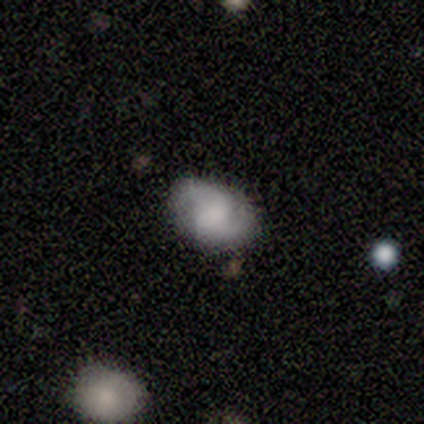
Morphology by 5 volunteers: Overall: smooth (80%). How rounded: round (50%, tied with in between). Merging: none (80%).